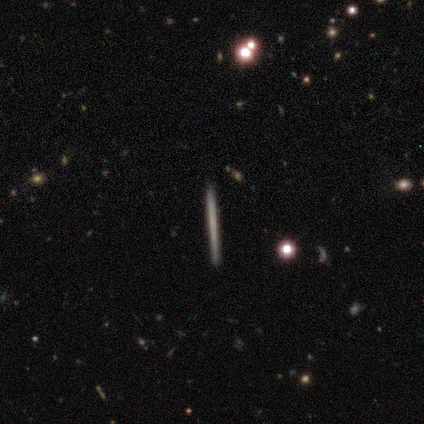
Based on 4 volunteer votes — Smooth or featured? smooth (50%, tied with featured or disk)
How rounded? cigar-shaped (100%)
Merging? none (100%)